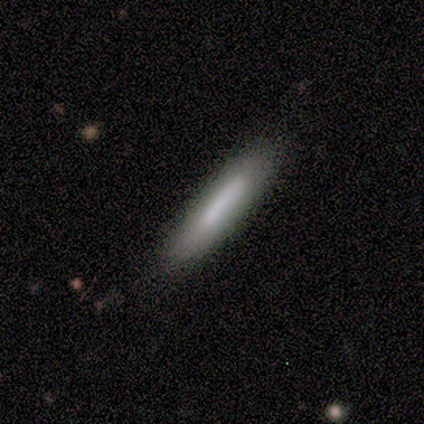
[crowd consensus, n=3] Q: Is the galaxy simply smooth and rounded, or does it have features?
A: smooth — 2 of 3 (67%).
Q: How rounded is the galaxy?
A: cigar-shaped — 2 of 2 (100%).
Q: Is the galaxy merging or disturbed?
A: none — 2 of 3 (67%).